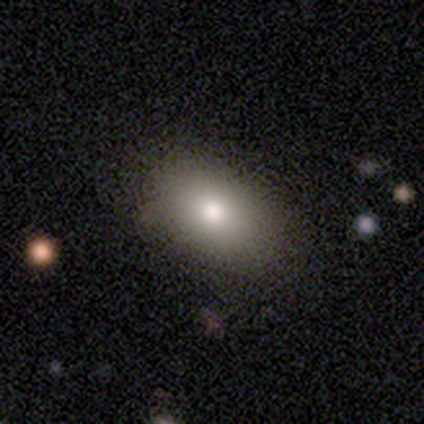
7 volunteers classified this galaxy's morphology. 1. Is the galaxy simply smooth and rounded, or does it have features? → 57% smooth, 43% featured or disk, 0% star or artifact.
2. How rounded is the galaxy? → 75% in between, 25% cigar-shaped, 0% round.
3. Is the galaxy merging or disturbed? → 71% none, 14% minor disturbance, 14% merger, 0% major disturbance.